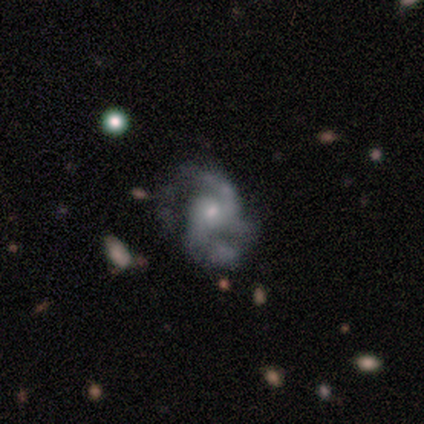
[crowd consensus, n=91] Q: Smooth or featured?
A: featured or disk (87%); runner-up: smooth (7%)
Q: Edge-on disk?
A: no (100%)
Q: Bar?
A: no (65%); runner-up: weak (34%)
Q: Spiral arms?
A: yes (97%); runner-up: no (3%)
Q: Spiral winding?
A: medium (55%); runner-up: loose (23%)
Q: Spiral arm count?
A: 2 (52%); runner-up: 3 (27%)
Q: Bulge size?
A: small (63%); runner-up: moderate (32%)
Q: Merging?
A: none (41%); runner-up: minor disturbance (28%)